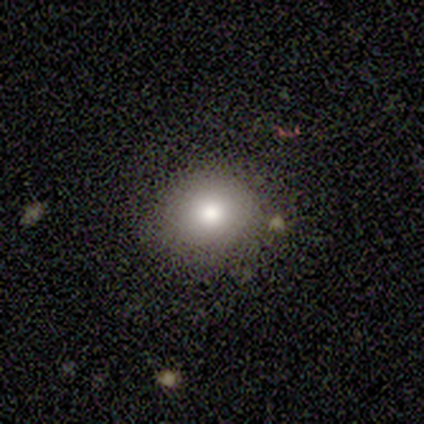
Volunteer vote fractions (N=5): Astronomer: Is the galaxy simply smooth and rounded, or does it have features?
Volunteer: smooth — 100%.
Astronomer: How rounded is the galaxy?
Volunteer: round — 80%.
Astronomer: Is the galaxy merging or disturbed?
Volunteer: none — 100%.